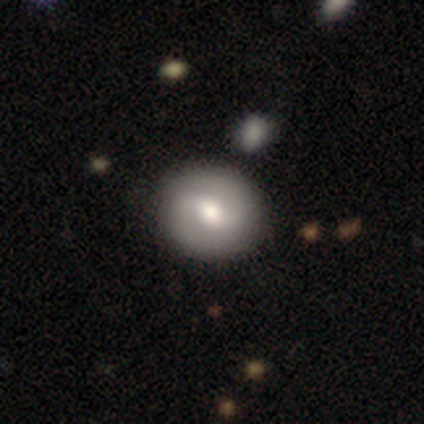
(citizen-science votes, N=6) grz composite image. It shows a featured or disk galaxy (50%) with a strong bar (33%, tied with weak and no), 2 (100%) tight (50%, tied with medium) spiral arms (67%) and a moderate central bulge (67%). Merging: none (100%).